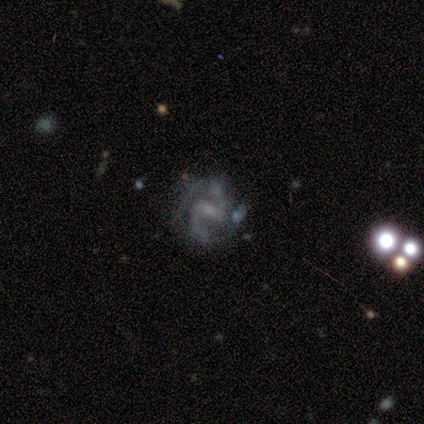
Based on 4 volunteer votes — A featured or disk galaxy (75%) with a strong bar (67%), 2 (100%) loose (67%) spiral arms (100%) and a moderate central bulge (67%).

Vote fractions:
- Smooth or featured? featured or disk: 75% / star or artifact: 25% / smooth: 0%
- Edge-on disk? no: 100% / yes: 0%
- Bar? strong: 67% / weak: 33% / no: 0%
- Spiral arms? yes: 100% / no: 0%
- Spiral winding? loose: 67% / medium: 33% / tight: 0%
- Spiral arm count? 2: 100% / 1: 0% / 3: 0% / 4: 0% / more than 4: 0% / can't tell: 0%
- Bulge size? moderate: 67% / small: 33% / dominant: 0% / large: 0% / none: 0%
- Merging? none: 33% (tied) / major disturbance: 33% (tied) / merger: 33% (tied) / minor disturbance: 0%